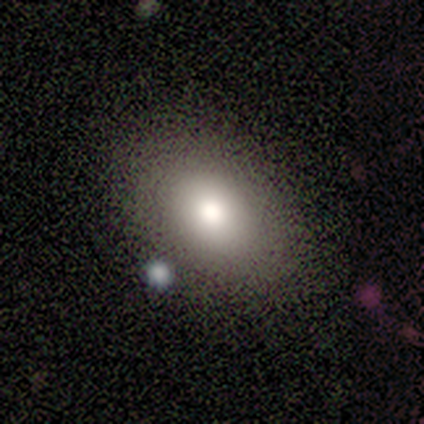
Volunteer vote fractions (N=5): smooth-or-featured: smooth: 60% | featured or disk: 40% | star or artifact: 0%
  how-rounded: in between: 100% | round: 0% | cigar-shaped: 0%
  merging: none: 60% | minor disturbance: 20% | merger: 20% | major disturbance: 0%